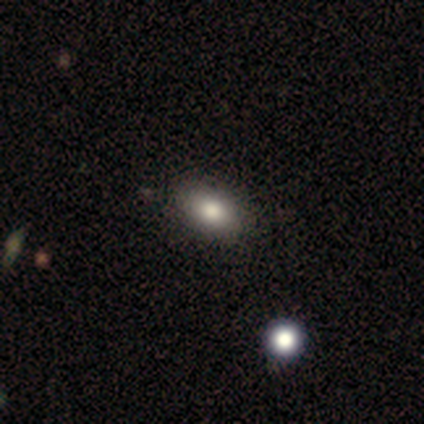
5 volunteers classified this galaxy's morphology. smooth_or_featured: smooth (p=1.00)
how_rounded: in between (p=1.00)
merging: none (p=1.00)